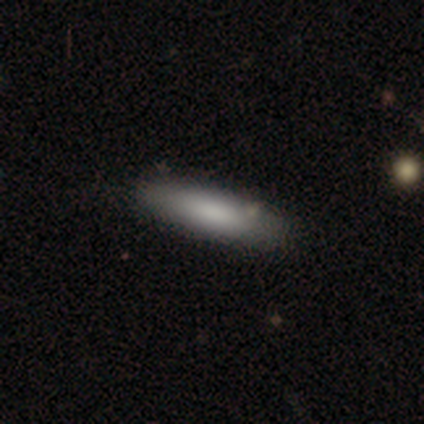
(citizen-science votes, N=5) smooth-or-featured: smooth: 100% | featured or disk: 0% | star or artifact: 0%
  how-rounded: cigar-shaped: 80% | in between: 20% | round: 0%
  merging: none: 100% | minor disturbance: 0% | major disturbance: 0% | merger: 0%